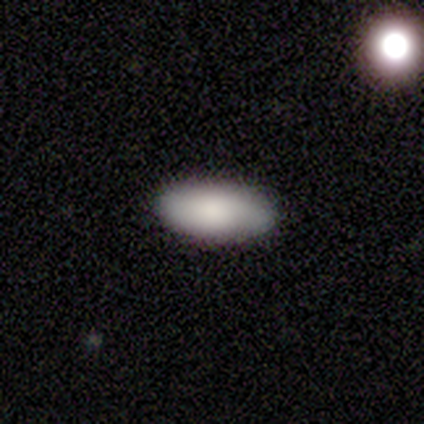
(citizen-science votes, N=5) smooth-or-featured: smooth: 80% | star or artifact: 20% | featured or disk: 0%
  how-rounded: in between: 100% | round: 0% | cigar-shaped: 0%
  merging: none: 100% | minor disturbance: 0% | major disturbance: 0% | merger: 0%